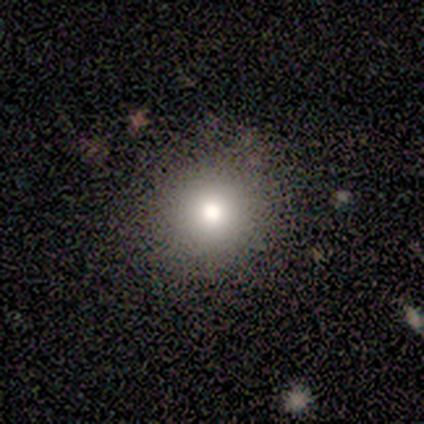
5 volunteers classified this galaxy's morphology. Overall: smooth (60%; featured or disk 20%). How rounded: round (100%). Merging: none (75%).